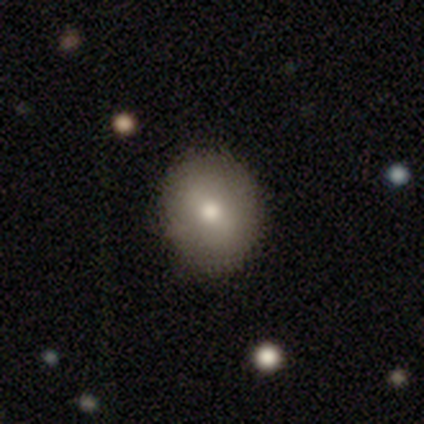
smooth_or_featured: smooth (p=0.73) [alt: featured or disk p=0.16]
how_rounded: round (p=0.78) [alt: in between p=0.22]
merging: none (p=0.94) [alt: minor disturbance p=0.03]